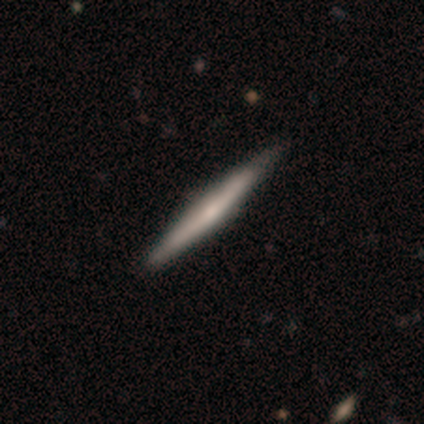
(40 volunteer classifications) smooth-or-featured: featured or disk: 65% | smooth: 35% | star or artifact: 0%
  disk-edge-on: yes: 100% | no: 0%
    edge-on-bulge: none: 42% | rounded: 38% | boxy: 19%
  merging: none: 52% | merger: 5% | minor disturbance: 0% | major disturbance: 0%